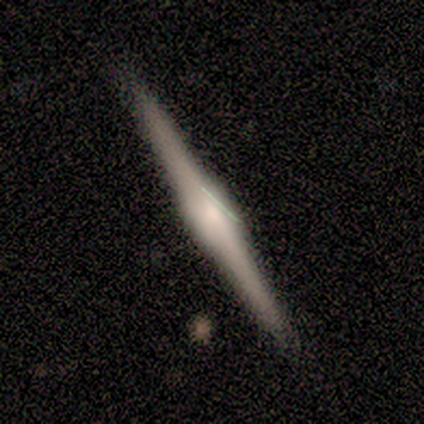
A featured or disk galaxy (100%) viewed edge-on (100%) with a boxy central bulge (50%, tied with rounded).

Vote fractions:
- Smooth or featured? featured or disk: 100% / smooth: 0% / star or artifact: 0%
- Edge-on disk? yes: 100% / no: 0%
- Edge-on bulge? boxy: 50% (tied) / rounded: 50% (tied) / none: 0%
- Merging? none: 100% / minor disturbance: 0% / major disturbance: 0% / merger: 0%